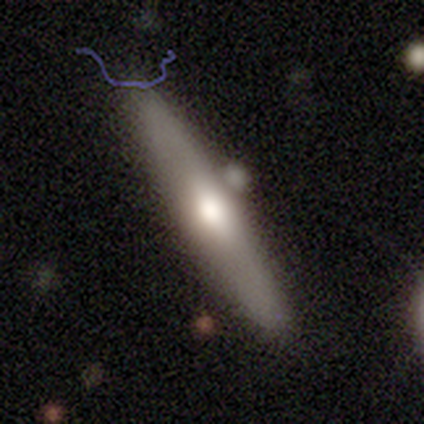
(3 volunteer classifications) Smooth or featured: featured or disk — 67% (star or artifact — 33%)
Edge-on disk: yes — 100%
Edge-on bulge: boxy — 50% (tied with rounded — 50%)
Merging: none — 50% (tied with minor disturbance — 50%)